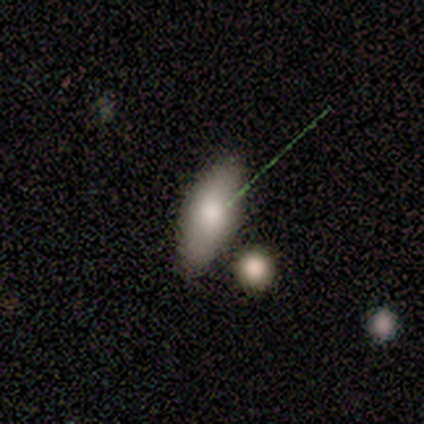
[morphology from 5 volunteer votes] Smooth or featured: smooth — 100%
How rounded: in between — 100%
Merging: none — 40% (minor disturbance — 20%)